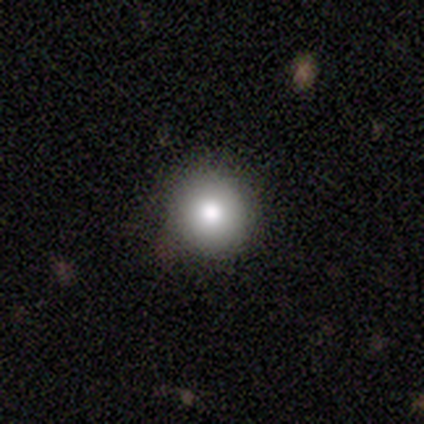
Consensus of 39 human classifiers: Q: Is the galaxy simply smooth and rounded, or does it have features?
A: smooth — 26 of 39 (67%).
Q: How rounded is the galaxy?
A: round — 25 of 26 (96%).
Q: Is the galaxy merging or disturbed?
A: none — 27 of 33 (82%).